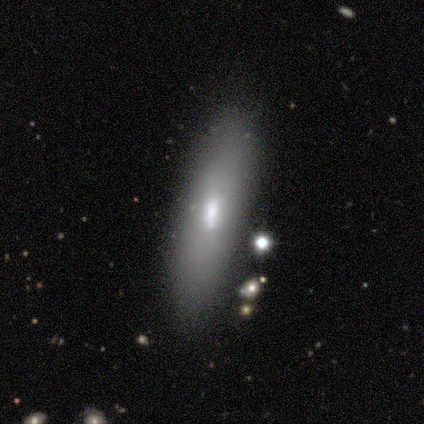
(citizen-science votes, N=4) smooth_or_featured: featured or disk (p=0.50) [alt: smooth p=0.25]
disk_edge_on: yes (p=0.50) [tied with: no p=0.50]
edge_on_bulge: boxy (p=1.00)
merging: none (p=0.67) [alt: merger p=0.33]